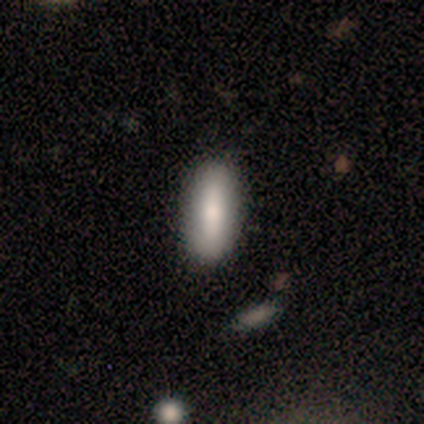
smooth-or-featured: smooth: 100% | featured or disk: 0% | star or artifact: 0%
  how-rounded: in between: 50% (tied) | cigar-shaped: 50% (tied) | round: 0%
  merging: none: 100% | minor disturbance: 0% | major disturbance: 0% | merger: 0%